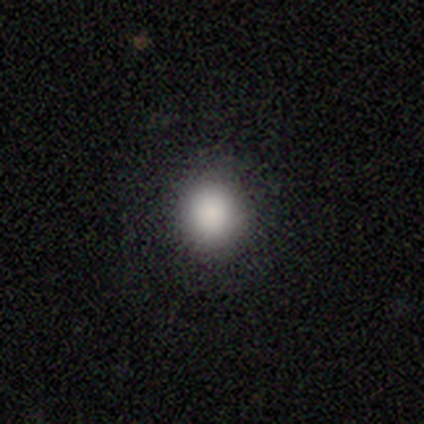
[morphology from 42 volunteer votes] Q: Smooth or featured?
A: smooth (83%); runner-up: star or artifact (12%)
Q: How rounded?
A: round (83%); runner-up: in between (17%)
Q: Merging?
A: none (84%); runner-up: minor disturbance (11%)